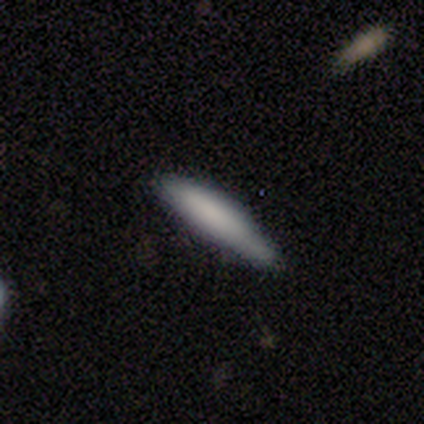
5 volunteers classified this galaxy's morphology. smooth 80%, star or artifact 20%, featured or disk 0%. Down the decision tree: how rounded — cigar-shaped (75%); merging — none (75%).